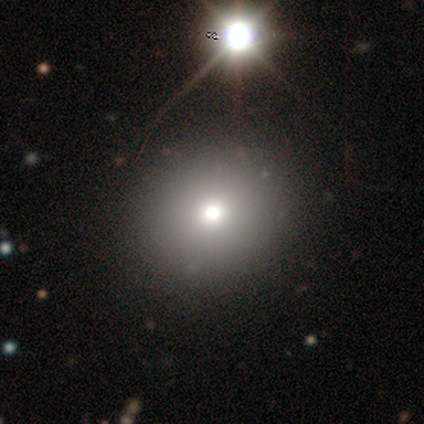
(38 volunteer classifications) Smooth or featured: smooth — 68% (featured or disk — 16%)
How rounded: round — 88% (in between — 12%)
Merging: none — 75% (minor disturbance — 3%)